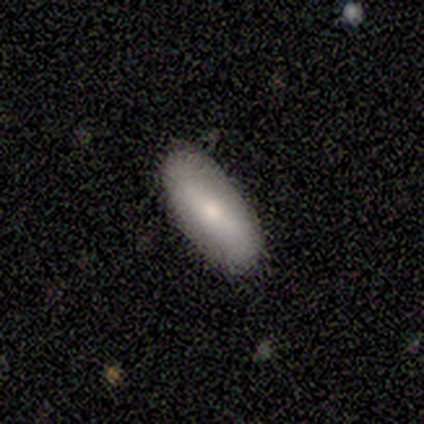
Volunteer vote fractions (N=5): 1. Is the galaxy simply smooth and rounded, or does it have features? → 80% smooth, 20% featured or disk, 0% star or artifact.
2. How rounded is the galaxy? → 100% in between, 0% round, 0% cigar-shaped.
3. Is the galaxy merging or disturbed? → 100% none, 0% minor disturbance, 0% major disturbance, 0% merger.